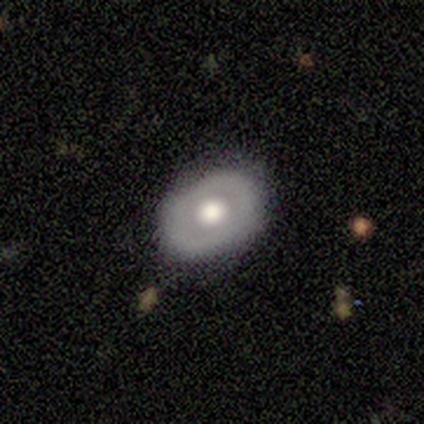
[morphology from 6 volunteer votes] featured or disk 67%, smooth 17%, star or artifact 17%. Down the decision tree: edge-on disk — no (75%); bar — no (100%); spiral arms — no (100%); bulge size — moderate (67%); merging — none (80%).